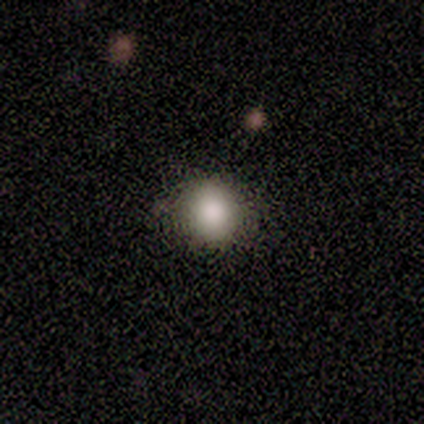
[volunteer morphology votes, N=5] Smooth or featured?
  - smooth: 80% *
  - star or artifact: 20%
  - featured or disk: 0%
How rounded?
  - round: 75% *
  - in between: 25%
  - cigar-shaped: 0%
Merging?
  - none: 100% *
  - minor disturbance: 0%
  - major disturbance: 0%
  - merger: 0%